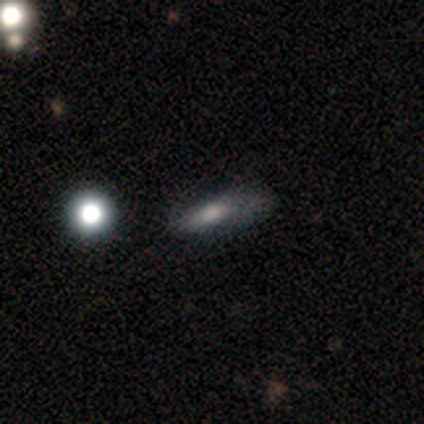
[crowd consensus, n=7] Overall: smooth (43%; featured or disk 29%). How rounded: in between (67%; cigar-shaped 33%). Merging: none (60%; minor disturbance 20%).